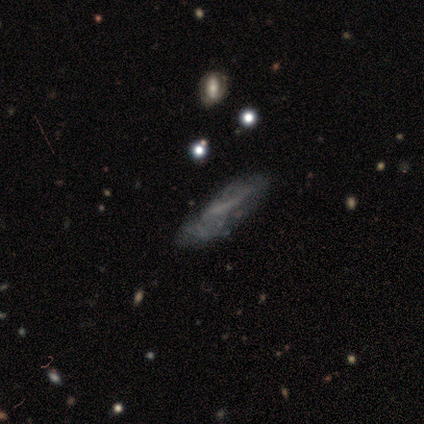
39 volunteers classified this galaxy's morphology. Smooth or featured? featured or disk (72%)
Edge-on disk? no (68%)
Bar? no (74%)
Spiral arms? no (68%)
Bulge size? none (95%)
Merging? minor disturbance (36%)